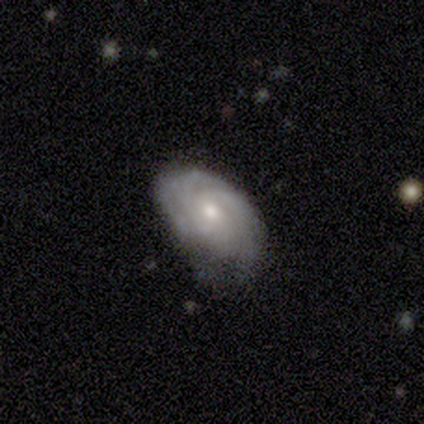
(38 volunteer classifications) Morphology: type=featured or disk (82%); edge-on=no (100%); bar=no (87%); spiral arms=yes (94%); winding=tight (76%); arm count=can't tell (48%); bulge=moderate (61%); merging=none (57%).